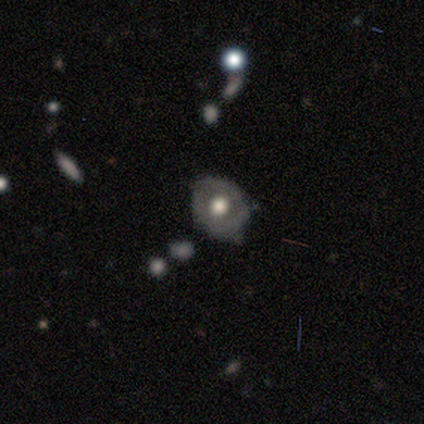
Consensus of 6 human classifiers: smooth 50% (tied), featured or disk 50% (tied), star or artifact 0%. Down the decision tree: how rounded — round (100%); merging — none (67%).